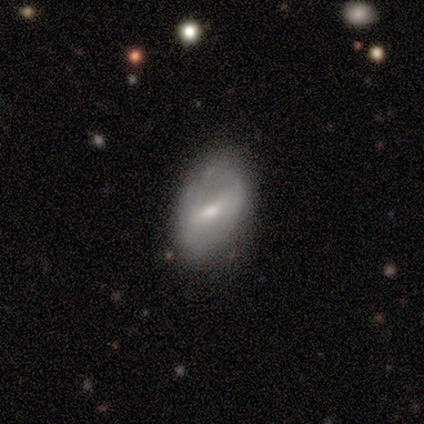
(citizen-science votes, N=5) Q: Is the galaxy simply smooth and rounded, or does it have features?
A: featured or disk — 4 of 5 (80%).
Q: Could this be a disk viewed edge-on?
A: no — 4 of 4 (100%).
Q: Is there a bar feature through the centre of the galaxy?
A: strong — 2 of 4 (50%, tied with weak).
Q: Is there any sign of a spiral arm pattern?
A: no — 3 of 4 (75%).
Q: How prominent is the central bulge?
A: moderate — 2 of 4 (50%, tied with small).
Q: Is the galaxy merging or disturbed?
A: none — 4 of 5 (80%).